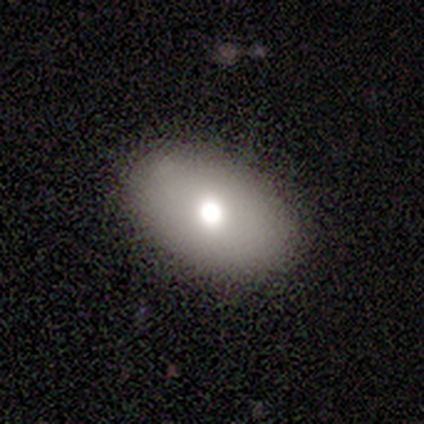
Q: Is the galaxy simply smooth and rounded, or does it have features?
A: smooth — 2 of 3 (67%).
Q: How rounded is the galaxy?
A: in between — 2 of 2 (100%).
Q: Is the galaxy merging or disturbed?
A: none — 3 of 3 (100%).